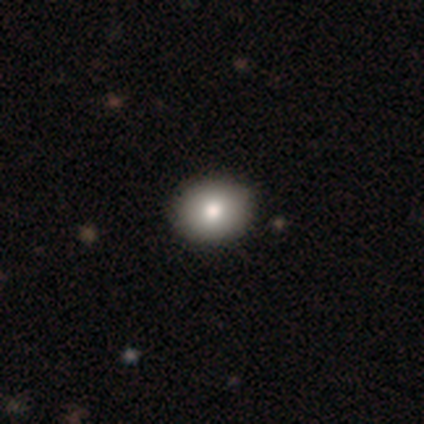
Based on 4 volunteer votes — Smooth or featured?
  - smooth: 100% *
  - featured or disk: 0%
  - star or artifact: 0%
How rounded?
  - round: 50% * (tied)
  - in between: 50% * (tied)
  - cigar-shaped: 0%
Merging?
  - none: 100% *
  - minor disturbance: 0%
  - major disturbance: 0%
  - merger: 0%